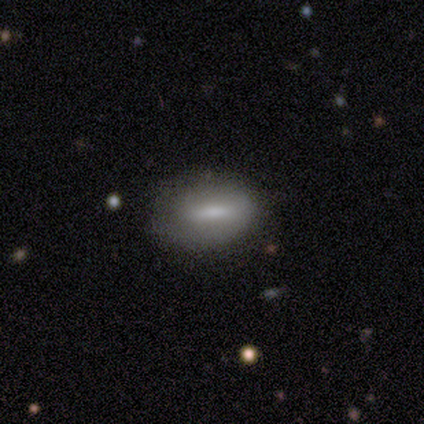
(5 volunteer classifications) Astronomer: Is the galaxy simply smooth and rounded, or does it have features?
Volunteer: featured or disk — 80%.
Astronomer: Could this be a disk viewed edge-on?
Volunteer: no — 75%.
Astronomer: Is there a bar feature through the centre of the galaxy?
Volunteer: strong — 33%, tied with weak and no at 33%.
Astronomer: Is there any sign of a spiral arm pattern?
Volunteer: no — 100%.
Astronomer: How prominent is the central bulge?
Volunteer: small — 67%.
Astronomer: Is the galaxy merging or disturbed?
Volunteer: none — 80%.